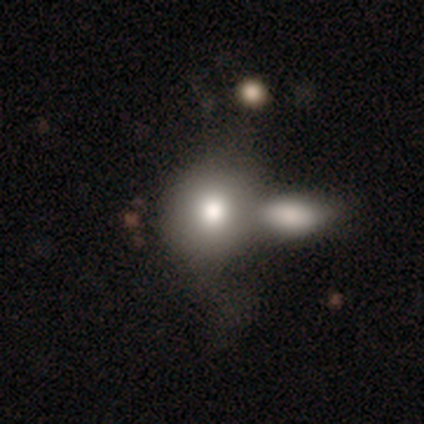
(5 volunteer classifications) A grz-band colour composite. It shows a smooth galaxy with no disk features (60%) that is round (67%). Merging: merger (80%).